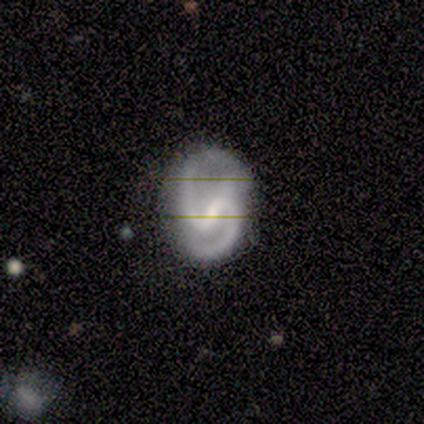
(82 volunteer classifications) featured or disk 95%, star or artifact 4%, smooth 1%. Down the decision tree: edge-on disk — no (99%); bar — strong (57%); spiral arms — yes (92%); spiral arm count — 2 (100%); spiral winding — medium (87%); bulge size — small (55%); merging — none (53%).